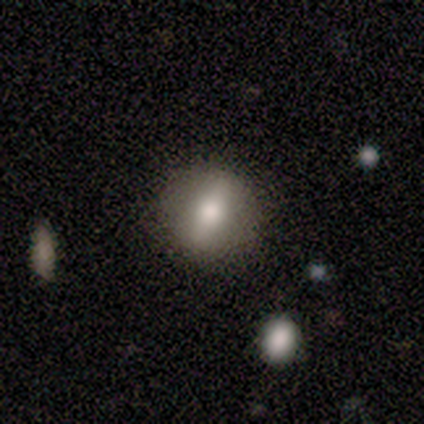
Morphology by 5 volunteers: A smooth galaxy with no disk features (80%) that is round (75%). Merging: none (80%).